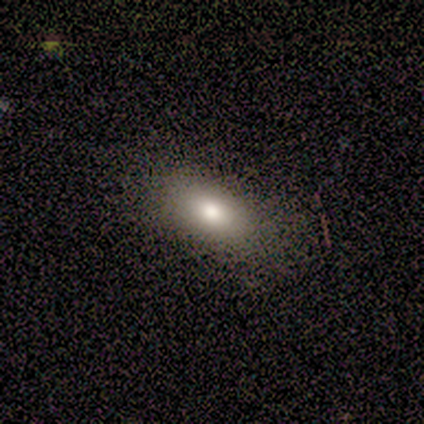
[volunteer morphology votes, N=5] Q: Smooth or featured?
A: smooth (60%); runner-up: featured or disk (40%)
Q: How rounded?
A: in between (100%)
Q: Merging?
A: none (80%); runner-up: minor disturbance (20%)